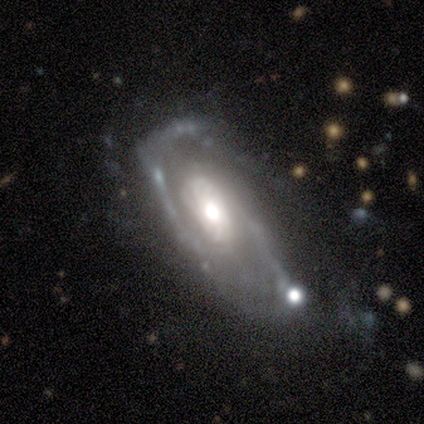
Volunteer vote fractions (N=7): A featured or disk galaxy (86%) with a weak bar (50%, tied with no), 2 (100%) medium (50%) spiral arms (100%) and a moderate central bulge (75%). Merging: minor disturbance (50%).